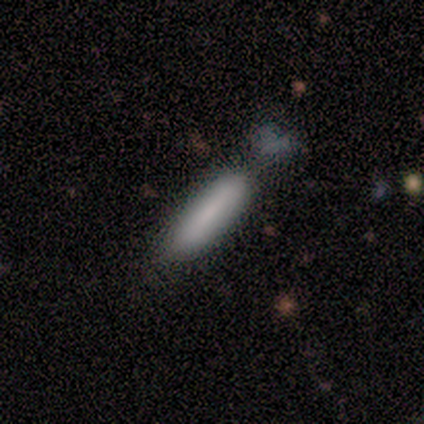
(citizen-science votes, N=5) Volunteers were most divided on "merging": minor disturbance: 40%, none: 20%, major disturbance: 20%, merger: 20%. More confident: smooth or featured — smooth (100%); how rounded — cigar-shaped (100%).